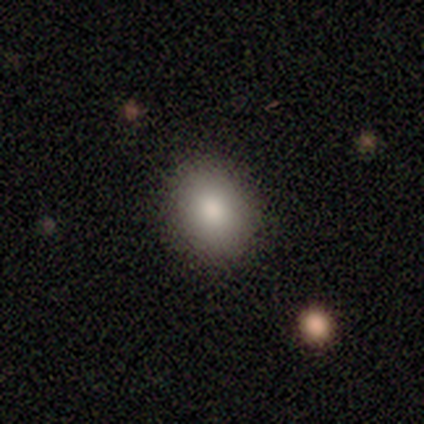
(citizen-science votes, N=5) A smooth galaxy with no disk features (80%) that is in between round and cigar-shaped (75%). Merging: none (75%).